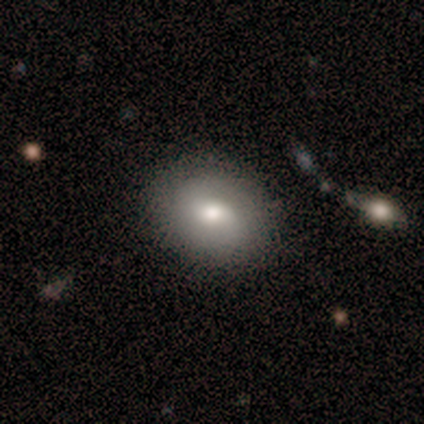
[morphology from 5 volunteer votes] This is clearly a smooth galaxy (80%). How rounded: likely in between (75%). Merging: clearly none (100%).